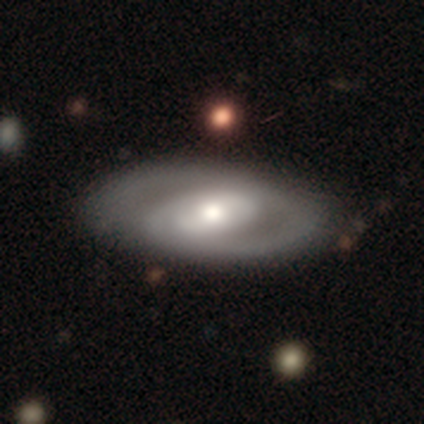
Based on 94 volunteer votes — Smooth or featured? 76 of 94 (81%) said featured or disk. Edge-on disk? 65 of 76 (86%) said no. Bar? 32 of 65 (49%) said no. Spiral arms? 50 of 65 (77%) said yes. Spiral winding? 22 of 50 (44%, tied with medium) said tight. Spiral arm count? 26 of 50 (52%) said 2. Bulge size? 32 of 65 (49%) said moderate. Merging? 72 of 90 (80%) said none.